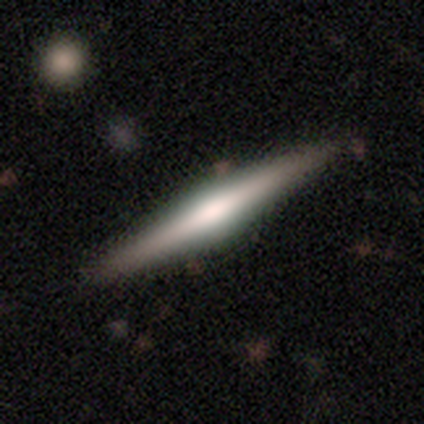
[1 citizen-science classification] Overall: featured or disk (100%). Edge-on disk: yes (100%). Edge-on bulge: boxy (100%). Merging: none (100%).